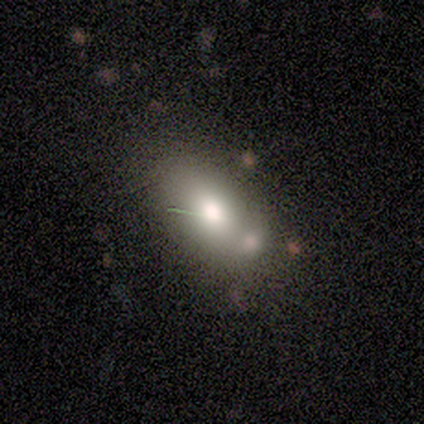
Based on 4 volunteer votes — Morphology: type=smooth (75%); roundness=in between (67%); merging=minor disturbance (50%).